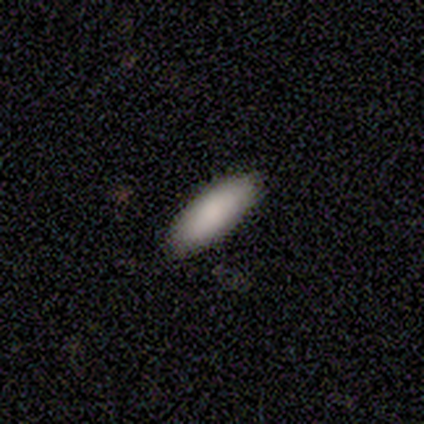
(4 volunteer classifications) Smooth or featured? smooth (75%)
How rounded? cigar-shaped (67%)
Merging? none (67%)